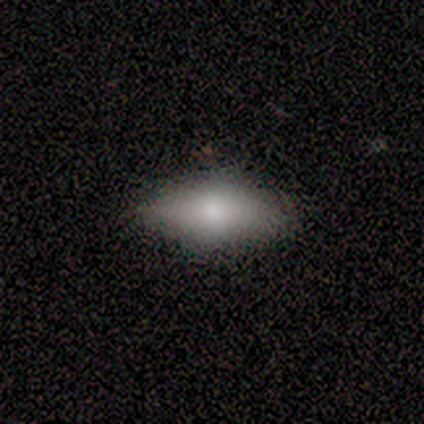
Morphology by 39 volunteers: Overall: smooth (77%). How rounded: in between (90%). Merging: none (68%).